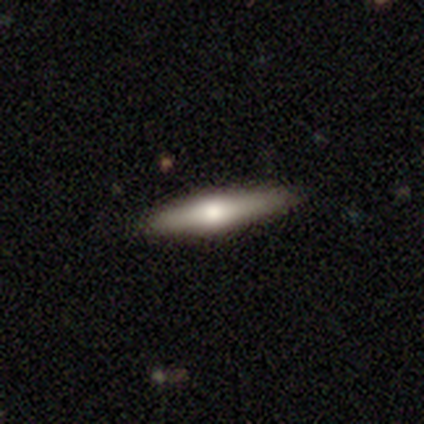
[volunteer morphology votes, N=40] Smooth or featured? featured or disk (57%)
Edge-on disk? yes (91%)
Edge-on bulge? rounded (95%)
Merging? none (89%)